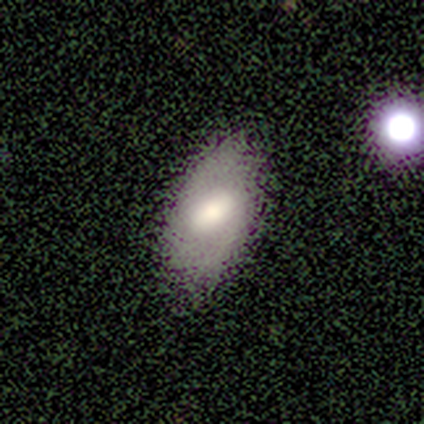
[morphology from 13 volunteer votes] This appears to be a featured or disk galaxy (62%) with a weak bar (71%), no spiral arms (57%) and a large central bulge (43%). Merging: none (85%).